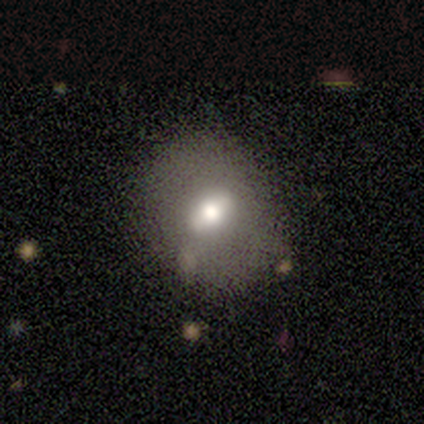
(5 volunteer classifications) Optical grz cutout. It shows a smooth galaxy with no disk features (60%) that is round (67%). Merging: none (80%).